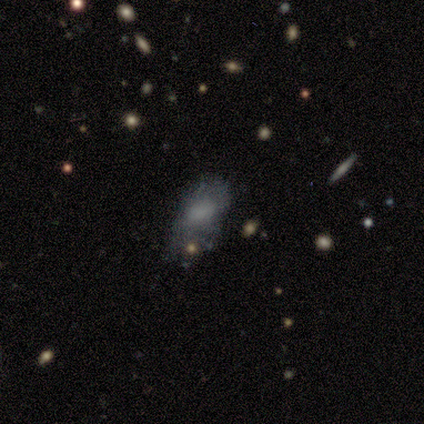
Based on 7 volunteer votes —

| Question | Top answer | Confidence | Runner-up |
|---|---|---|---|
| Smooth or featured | smooth | 71% | featured or disk (29%) |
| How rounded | in between | 100% | — |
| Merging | major disturbance | 57% | minor disturbance (43%) |